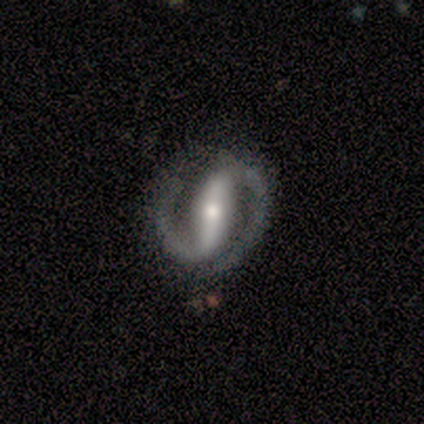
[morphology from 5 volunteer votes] A featured or disk galaxy (100%) with a strong bar (60%), 2 (100%) medium (60%) spiral arms (100%) and a moderate central bulge (60%). Merging: none (100%).